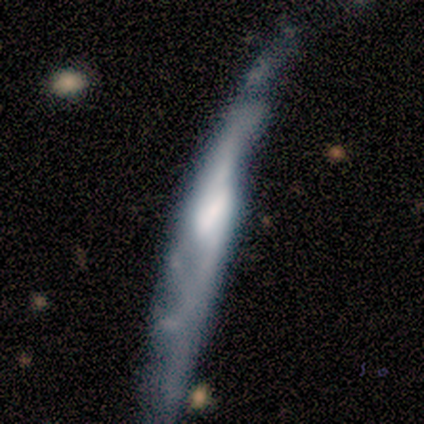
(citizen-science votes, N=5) Smooth or featured? 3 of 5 (60%) said featured or disk. Edge-on disk? 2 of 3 (67%) said yes. Edge-on bulge? 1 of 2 (50%, tied with rounded) said none. Merging? 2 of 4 (50%) said none.